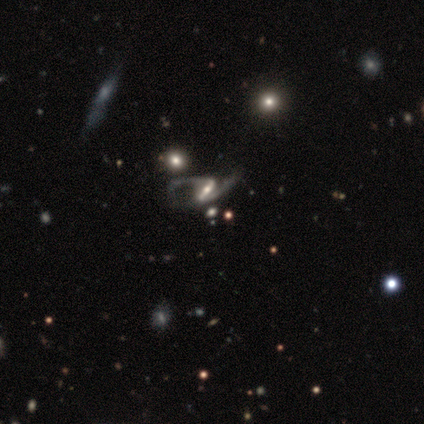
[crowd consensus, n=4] smooth-or-featured: featured or disk: 100% | smooth: 0% | star or artifact: 0%
  disk-edge-on: no: 100% | yes: 0%
    bar: strong: 50% | weak: 25% | no: 25%
    has-spiral-arms: yes: 100% | no: 0%
      spiral-winding: loose: 75% | medium: 25% | tight: 0%
      spiral-arm-count: 2: 75% | 1: 25% | 3: 0% | 4: 0% | more than 4: 0% | can't tell: 0%
    bulge-size: large: 25% (tied) | moderate: 25% (tied) | small: 25% (tied) | none: 25% (tied) | dominant: 0%
  merging: none: 50% | major disturbance: 25% | merger: 25% | minor disturbance: 0%